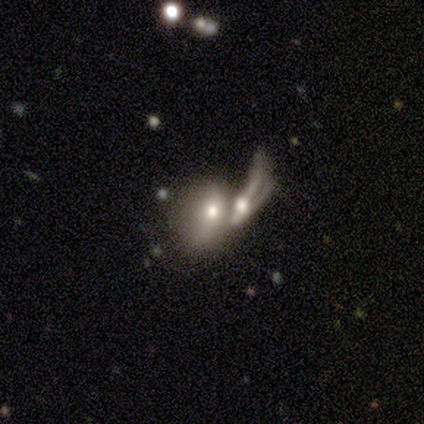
smooth_or_featured: smooth (p=0.75) [alt: featured or disk p=0.25]
how_rounded: in between (p=0.83) [alt: cigar-shaped p=0.17]
merging: merger (p=0.88) [alt: major disturbance p=0.12]